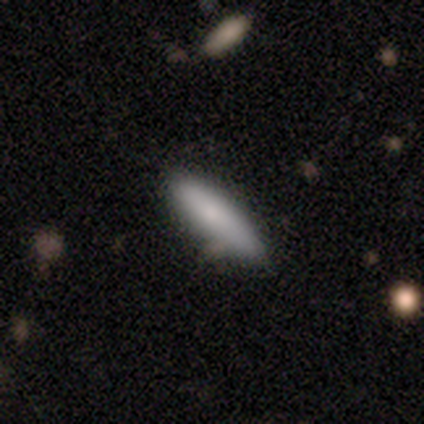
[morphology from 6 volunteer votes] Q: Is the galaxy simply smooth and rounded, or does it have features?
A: smooth — 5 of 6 (83%).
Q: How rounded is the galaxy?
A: cigar-shaped — 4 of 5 (80%).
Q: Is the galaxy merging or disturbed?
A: none — 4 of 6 (67%).